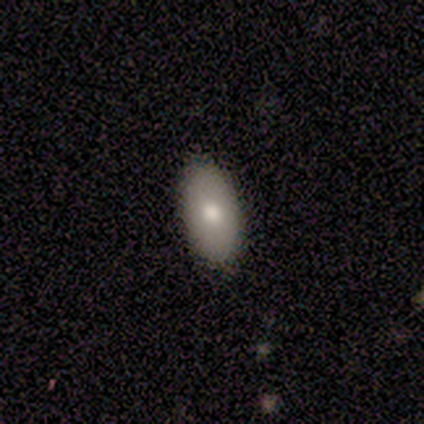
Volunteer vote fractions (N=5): Smooth or featured: smooth — 100%
How rounded: in between — 100%
Merging: none — 80% (minor disturbance — 20%)